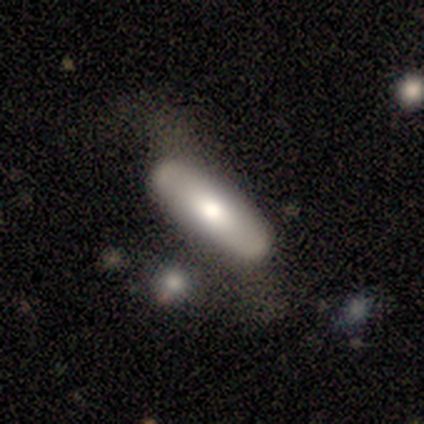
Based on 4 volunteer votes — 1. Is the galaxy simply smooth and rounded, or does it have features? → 75% smooth, 25% featured or disk, 0% star or artifact.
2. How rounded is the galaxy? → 67% in between, 33% cigar-shaped, 0% round.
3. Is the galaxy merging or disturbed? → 100% none, 0% minor disturbance, 0% major disturbance, 0% merger.